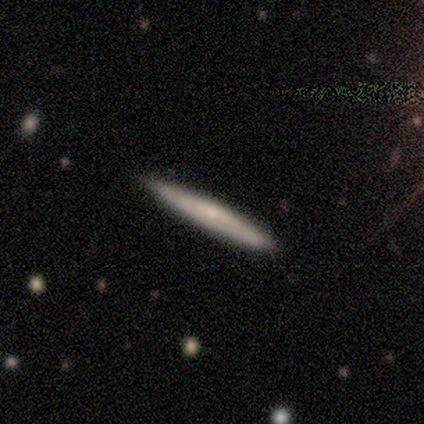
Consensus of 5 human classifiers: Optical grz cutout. It shows a smooth galaxy with no disk features (80%) that is cigar-shaped (100%). Merging: none (80%).